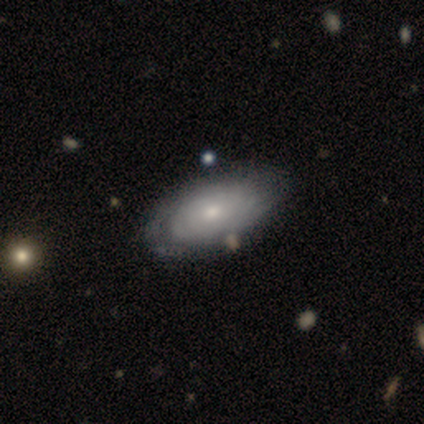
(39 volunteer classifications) Q: Smooth or featured?
A: featured or disk (62%); runner-up: smooth (36%)
Q: Edge-on disk?
A: no (92%); runner-up: yes (8%)
Q: Bar?
A: no (100%)
Q: Spiral arms?
A: yes (77%); runner-up: no (23%)
Q: Spiral winding?
A: tight (94%); runner-up: medium (6%)
Q: Spiral arm count?
A: can't tell (82%); runner-up: 2 (12%)
Q: Bulge size?
A: small (59%); runner-up: moderate (36%)
Q: Merging?
A: none (53%); runner-up: minor disturbance (13%)